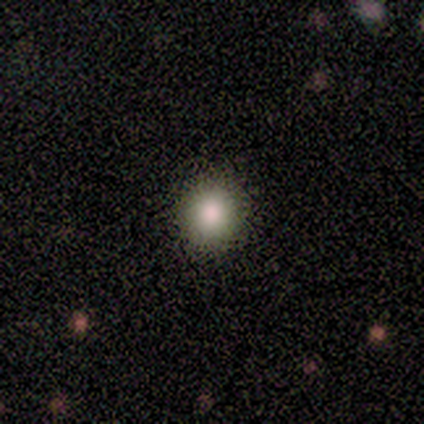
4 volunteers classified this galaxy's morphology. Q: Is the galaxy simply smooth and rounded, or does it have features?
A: smooth — 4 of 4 (100%).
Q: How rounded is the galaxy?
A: round — 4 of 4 (100%).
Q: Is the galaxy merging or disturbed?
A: none — 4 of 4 (100%).